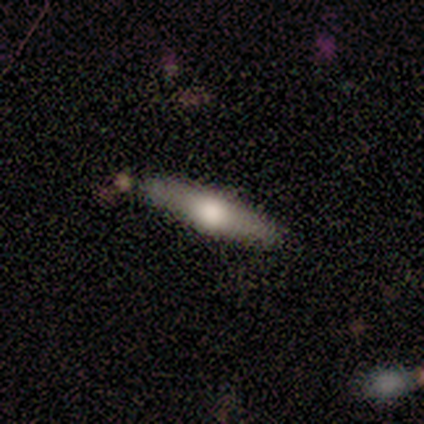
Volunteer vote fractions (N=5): Smooth or featured: featured or disk — 60% (smooth — 40%)
Edge-on disk: yes — 100%
Edge-on bulge: rounded — 67% (none — 33%)
Merging: none — 80% (minor disturbance — 20%)